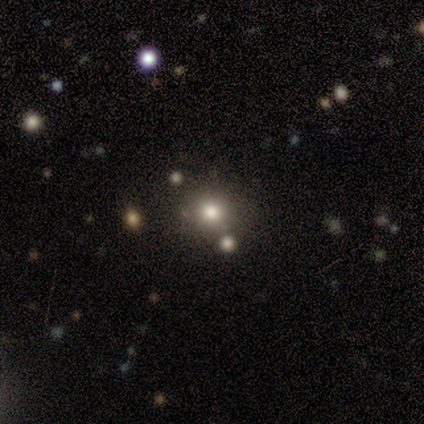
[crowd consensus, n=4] Smooth or featured: smooth — 100%
How rounded: round — 100%
Merging: none — 100%